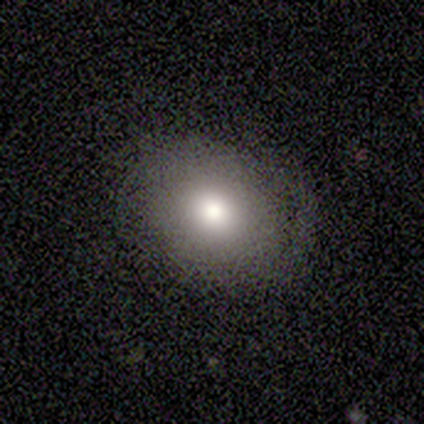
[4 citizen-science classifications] Morphology: type=smooth (50%); roundness=round (50%, tied with in between); merging=none (67%).